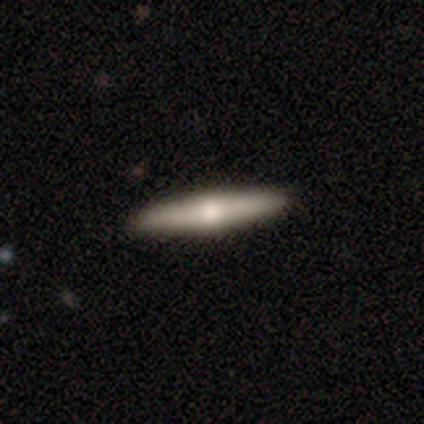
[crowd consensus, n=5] Smooth or featured? featured or disk (60%)
Edge-on disk? yes (67%)
Edge-on bulge? rounded (100%)
Merging? none (100%)